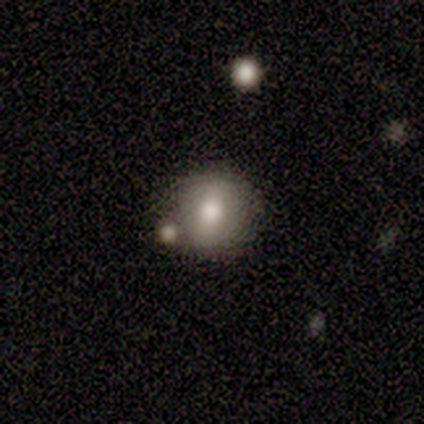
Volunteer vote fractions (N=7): smooth_or_featured: smooth (p=0.71) [alt: featured or disk p=0.14]
how_rounded: round (p=0.80) [alt: in between p=0.20]
merging: none (p=0.83) [alt: merger p=0.17]